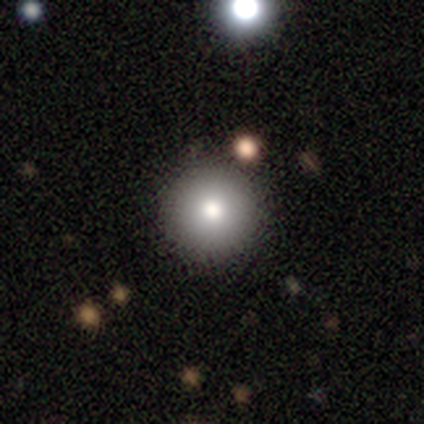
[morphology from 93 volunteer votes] A smooth galaxy with no disk features (81%) that is round (99%).

Vote fractions:
- Smooth or featured? smooth: 81% / star or artifact: 12% / featured or disk: 8%
- How rounded? round: 99% / in between: 1% / cigar-shaped: 0%
- Merging? none: 96% / minor disturbance: 4% / major disturbance: 0% / merger: 0%